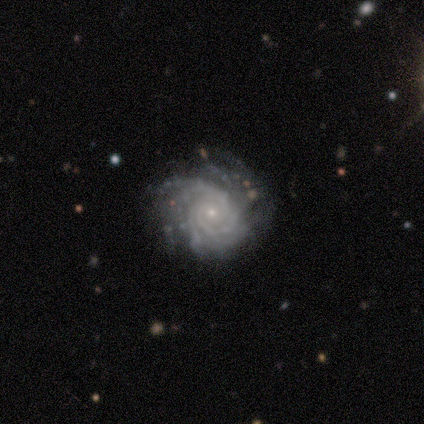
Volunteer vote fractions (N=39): This appears to be a featured or disk galaxy (90%) with no bar (71%), 3 (31%) tight (81%) spiral arms (94%) and a small central bulge (91%). Merging: none (78%).